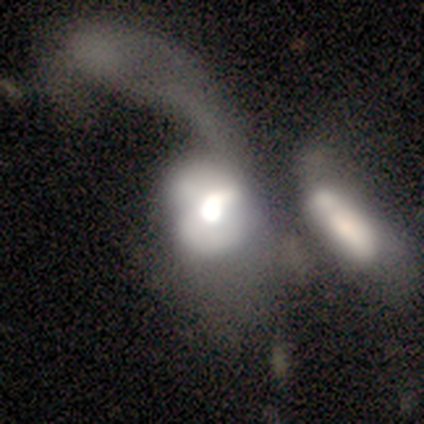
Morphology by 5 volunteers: smooth_or_featured: featured or disk (p=0.60) [alt: smooth p=0.40]
disk_edge_on: no (p=1.00)
bar: no (p=0.67) [alt: strong p=0.33]
has_spiral_arms: no (p=0.67) [alt: yes p=0.33]
bulge_size: large (p=0.33) [tied with: moderate p=0.33, small p=0.33]
merging: major disturbance (p=0.40) [tied with: merger p=0.40]